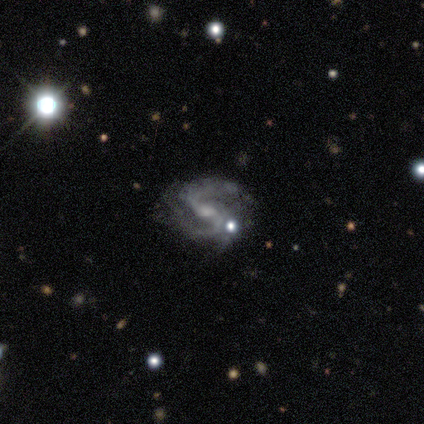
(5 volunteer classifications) Smooth or featured? 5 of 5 (100%) said featured or disk. Edge-on disk? 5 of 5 (100%) said no. Bar? 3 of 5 (60%) said no. Spiral arms? 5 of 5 (100%) said yes. Spiral winding? 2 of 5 (40%, tied with loose) said medium. Spiral arm count? 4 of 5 (80%) said 2. Bulge size? 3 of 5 (60%) said small. Merging? 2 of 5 (40%, tied with minor disturbance) said none.